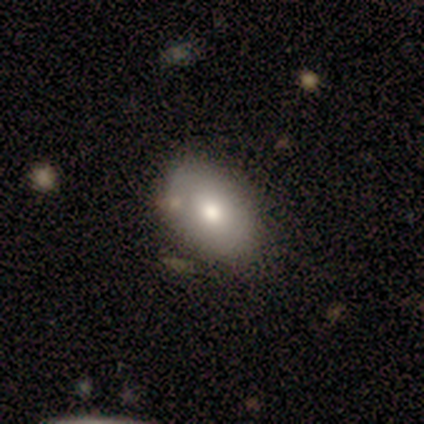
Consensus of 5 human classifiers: This is clearly a smooth galaxy (80%). How rounded: likely in between (75%). Merging: clearly none (100%).